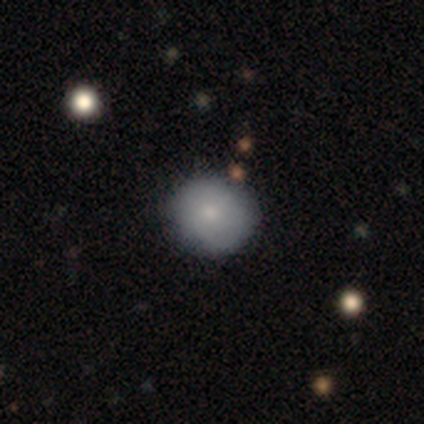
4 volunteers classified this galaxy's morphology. smooth_or_featured: smooth (p=0.75) [alt: featured or disk p=0.25]
how_rounded: round (p=0.67) [alt: in between p=0.33]
merging: none (p=0.75) [alt: merger p=0.25]